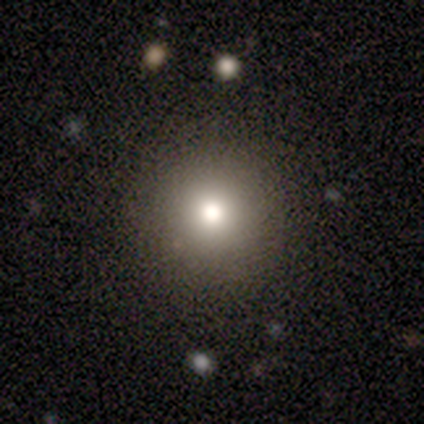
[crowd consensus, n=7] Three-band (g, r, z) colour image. It shows a smooth galaxy with no disk features (71%) that is round (100%). Merging: none (100%).